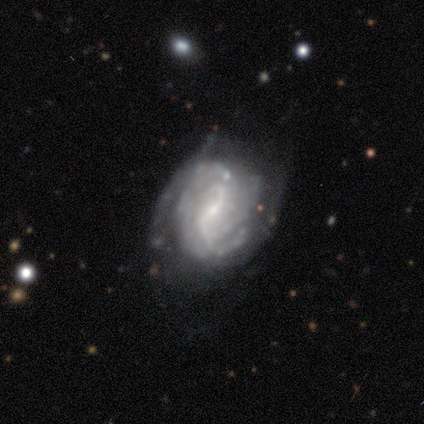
Volunteers were most divided on "spiral winding" (2-way tie): tight: 43%, medium: 43%, loose: 14%; "spiral arm count" (2-way tie): 2: 29%, can't tell: 29%, 1: 14%, 3: 14%, more than 4: 14%, 4: 0%; "merging" (2-way tie): none: 43%, minor disturbance: 43%, major disturbance: 14%, merger: 0%. More confident: smooth or featured — featured or disk (100%); edge-on disk — no (100%); spiral arms — yes (100%); bulge size — small (100%); bar — no (57%).